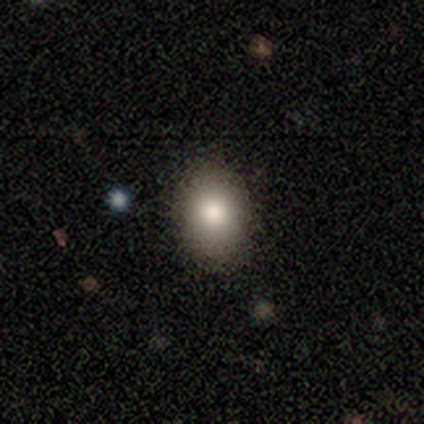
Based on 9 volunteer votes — This appears to be a smooth galaxy with no disk features (89%) that is in between round and cigar-shaped (75%). Merging: none (88%).